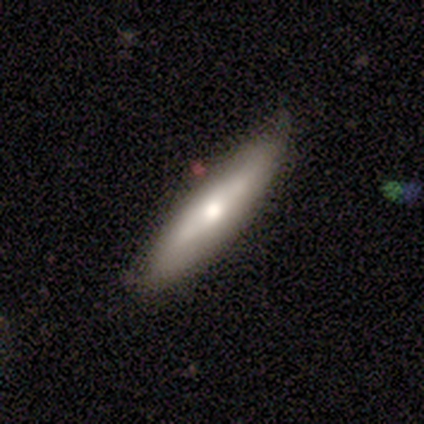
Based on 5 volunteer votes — Smooth or featured? smooth (60%)
How rounded? in between (67%)
Merging? none (80%)